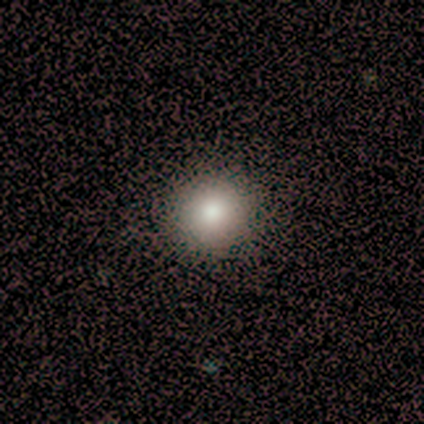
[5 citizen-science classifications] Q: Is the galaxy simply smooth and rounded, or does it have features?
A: smooth — 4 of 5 (80%).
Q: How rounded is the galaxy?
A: round — 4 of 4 (100%).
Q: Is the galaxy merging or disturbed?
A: none — 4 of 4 (100%).